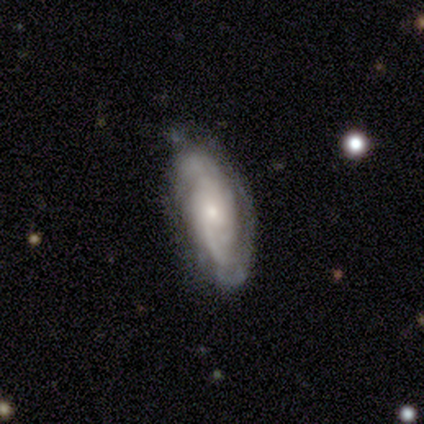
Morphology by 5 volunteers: type=featured or disk (80%); edge-on=no (100%); bar=weak (50%, tied with no); spiral arms=yes (75%); winding=tight (100%); arm count=2 (67%); bulge=small (75%); merging=minor disturbance (60%).